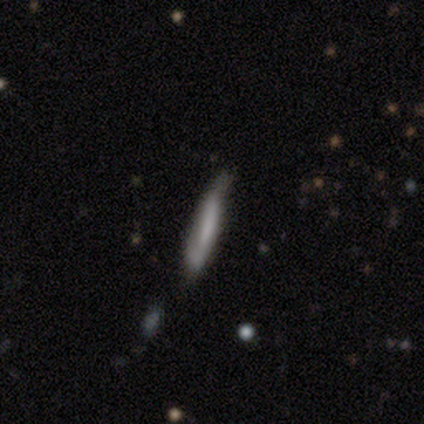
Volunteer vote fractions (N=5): Smooth or featured?
  - smooth: 60% *
  - featured or disk: 40%
  - star or artifact: 0%
How rounded?
  - cigar-shaped: 100% *
  - round: 0%
  - in between: 0%
Merging?
  - none: 40% * (tied)
  - minor disturbance: 40% * (tied)
  - merger: 20%
  - major disturbance: 0%